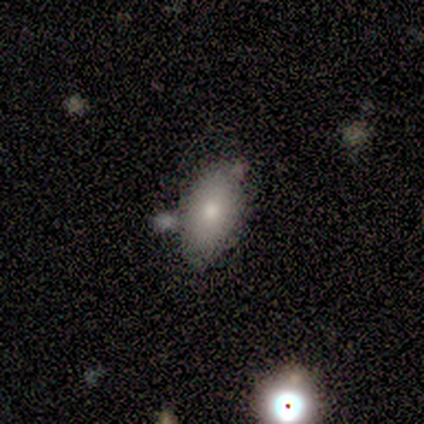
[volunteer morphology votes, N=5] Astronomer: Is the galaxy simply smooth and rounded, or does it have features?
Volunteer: smooth — 100%.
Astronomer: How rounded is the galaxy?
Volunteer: in between — 100%.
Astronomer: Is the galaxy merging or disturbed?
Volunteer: none — 60%.